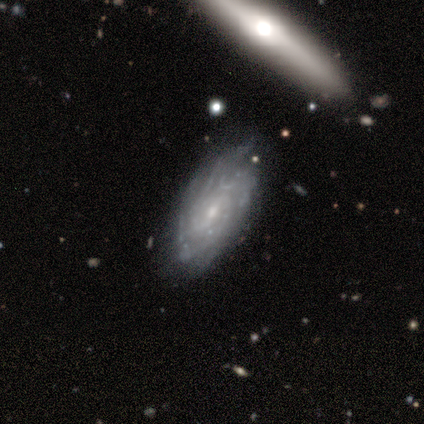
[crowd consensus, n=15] Smooth or featured? featured or disk (80%)
Edge-on disk? no (83%)
Bar? weak (60%)
Spiral arms? yes (90%)
Spiral winding? tight (44%, tied with medium)
Spiral arm count? can't tell (44%)
Bulge size? small (80%)
Merging? none (64%)